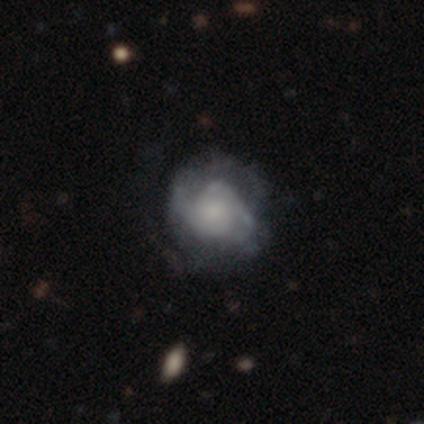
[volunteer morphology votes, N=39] This appears to be a featured or disk galaxy (69%) with no bar (85%), 2 (67%) medium (52%) spiral arms (78%) and a moderate central bulge (33%, tied with small). Merging: none (50%).